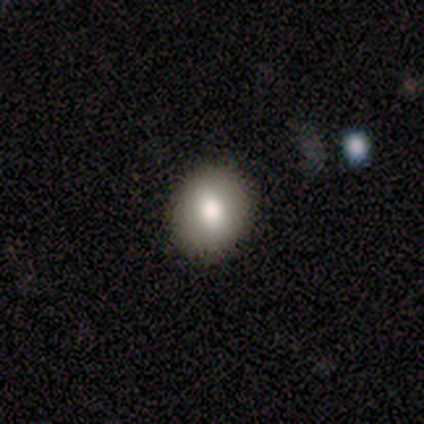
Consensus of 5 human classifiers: A smooth galaxy with no disk features (80%) that is round (50%, tied with in between). Merging: none (100%).